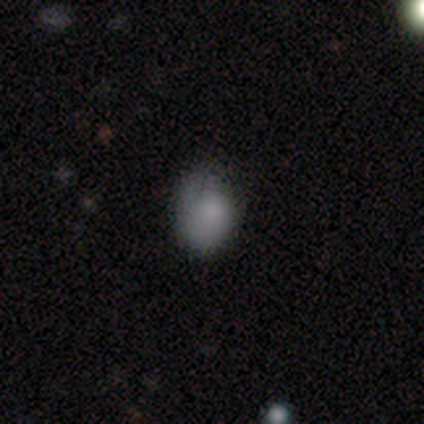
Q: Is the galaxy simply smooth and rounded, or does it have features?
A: smooth — 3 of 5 (60%).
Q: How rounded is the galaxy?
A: round — 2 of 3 (67%).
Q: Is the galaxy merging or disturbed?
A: none — 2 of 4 (50%, tied with major disturbance).